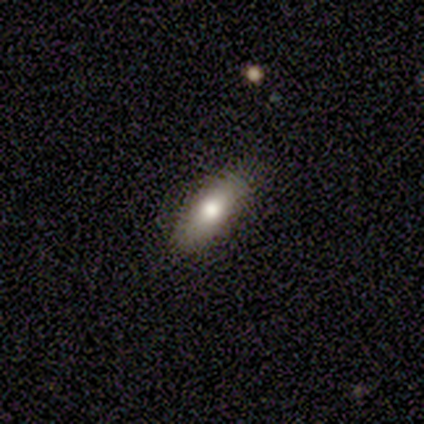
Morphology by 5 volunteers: Overall: smooth (100%). How rounded: in between (80%). Merging: none (60%; minor disturbance 40%).